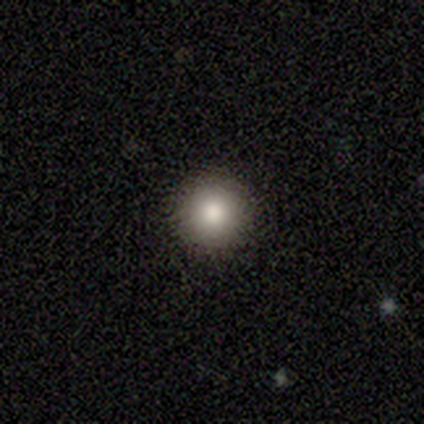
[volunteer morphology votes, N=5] Overall: smooth (100%). How rounded: round (100%). Merging: none (80%).